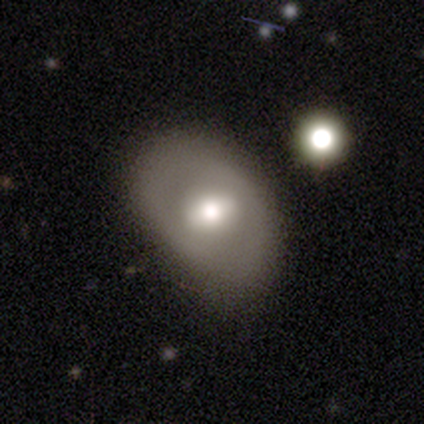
Smooth or featured: featured or disk — 80% (smooth — 20%)
Edge-on disk: no — 100%
Bar: no — 50% (strong — 25%)
Spiral arms: no — 100%
Bulge size: large — 75% (moderate — 25%)
Merging: none — 80% (minor disturbance — 20%)